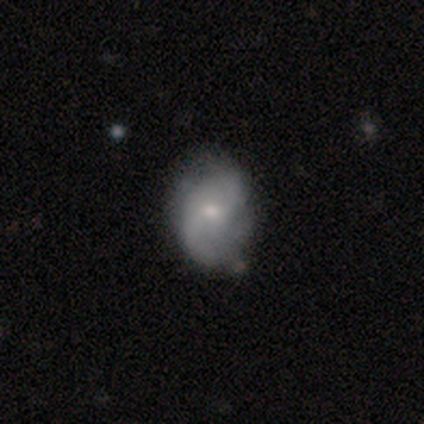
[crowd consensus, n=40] A featured or disk galaxy (72%) with no bar (62%), 2 (67%) loose (63%) spiral arms (93%) and a small central bulge (55%).

Vote fractions:
- Smooth or featured? featured or disk: 72% / smooth: 22% / star or artifact: 5%
- Edge-on disk? no: 100% / yes: 0%
- Bar? no: 62% / weak: 38% / strong: 0%
- Spiral arms? yes: 93% / no: 7%
- Spiral winding? loose: 63% / medium: 30% / tight: 7%
- Spiral arm count? 2: 67% / can't tell: 19% / 3: 11% / more than 4: 4% / 1: 0% / 4: 0%
- Bulge size? small: 55% / moderate: 41% / none: 3% / dominant: 0% / large: 0%
- Merging? none: 32% / minor disturbance: 29% / major disturbance: 11% / merger: 8%